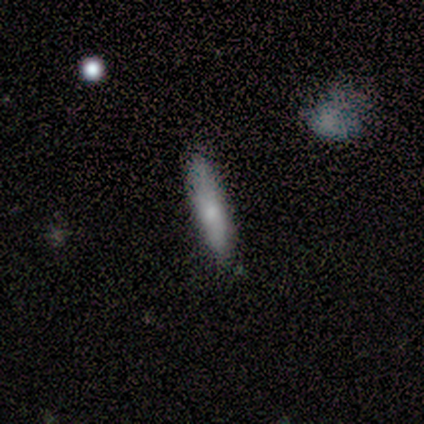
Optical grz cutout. It shows a smooth galaxy with no disk features (100%) that is cigar-shaped (89%). Merging: none (67%).